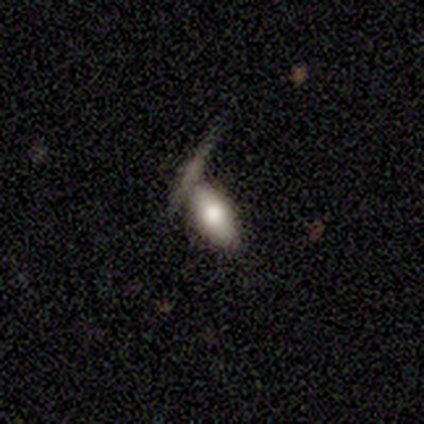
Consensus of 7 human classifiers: Smooth or featured: smooth — 71% (featured or disk — 14%)
How rounded: in between — 100%
Merging: none — 83% (merger — 17%)